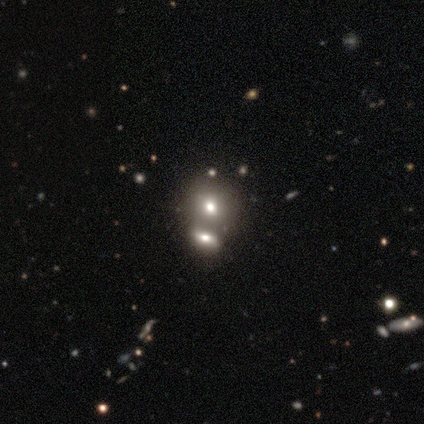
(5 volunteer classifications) Morphology: type=smooth (40%, tied with star or artifact); roundness=round (50%, tied with in between); merging=merger (67%).